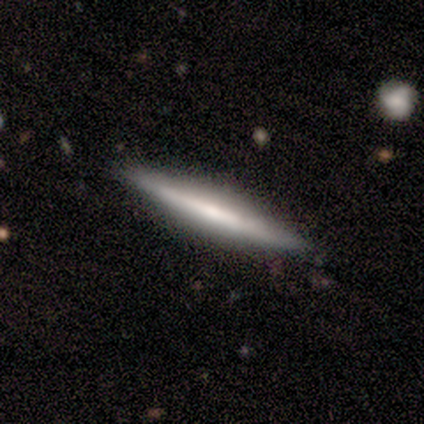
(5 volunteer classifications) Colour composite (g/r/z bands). It shows a smooth galaxy with no disk features (60%) that is cigar-shaped (100%). Merging: none (100%).